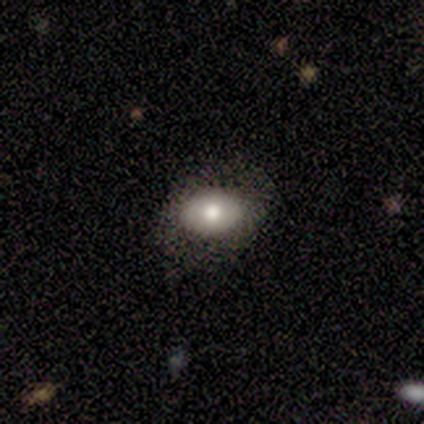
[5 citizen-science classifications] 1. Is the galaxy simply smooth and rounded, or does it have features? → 100% smooth, 0% featured or disk, 0% star or artifact.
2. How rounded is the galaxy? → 80% in between, 20% round, 0% cigar-shaped.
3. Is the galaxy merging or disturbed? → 80% none, 20% minor disturbance, 0% major disturbance, 0% merger.